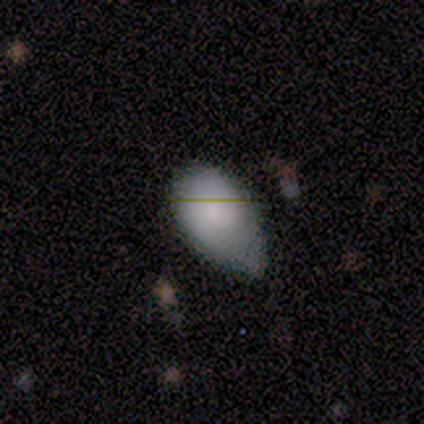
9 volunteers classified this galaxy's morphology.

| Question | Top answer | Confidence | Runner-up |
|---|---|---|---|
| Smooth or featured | smooth | 100% | — |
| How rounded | in between | 89% | round (11%) |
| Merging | minor disturbance | 56% | none (22%) |